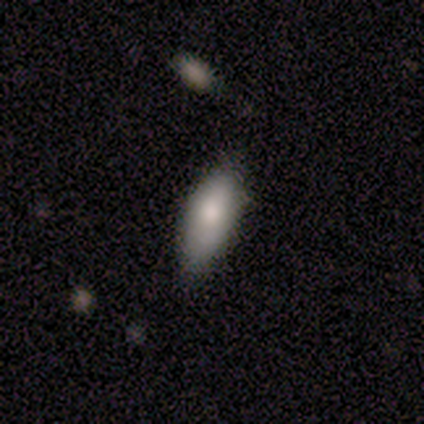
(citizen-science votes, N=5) A smooth galaxy with no disk features (80%) that is in between round and cigar-shaped (75%).

Vote fractions:
- Smooth or featured? smooth: 80% / featured or disk: 20% / star or artifact: 0%
- How rounded? in between: 75% / cigar-shaped: 25% / round: 0%
- Merging? none: 100% / minor disturbance: 0% / major disturbance: 0% / merger: 0%